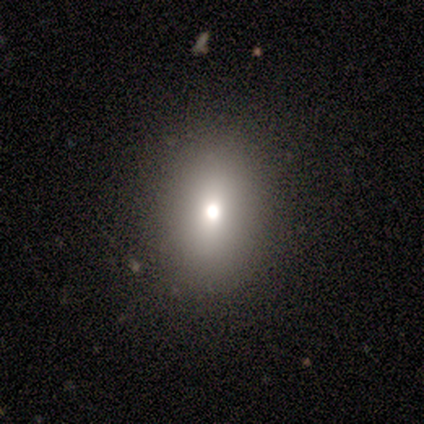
Morphology: type=smooth (60%); roundness=in between (100%); merging=none (100%).